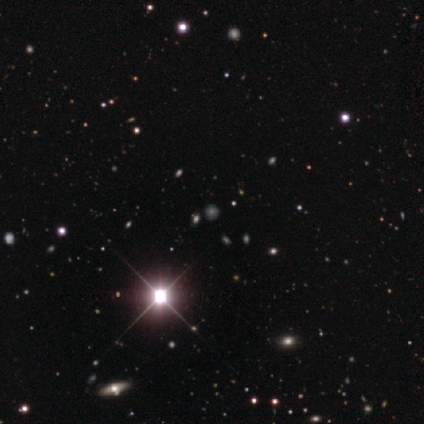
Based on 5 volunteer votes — This is clearly a star or artifact rather than a galaxy (80%).